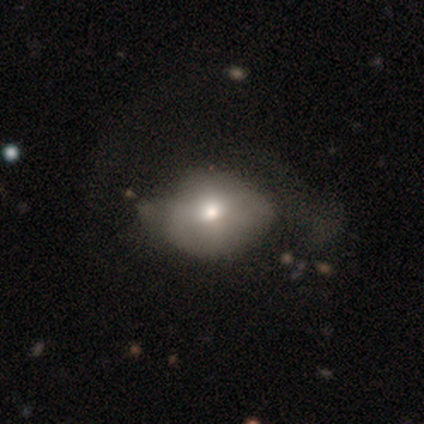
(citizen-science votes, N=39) A smooth galaxy with no disk features (67%) that is in between round and cigar-shaped (62%). Merging: major disturbance (41%).